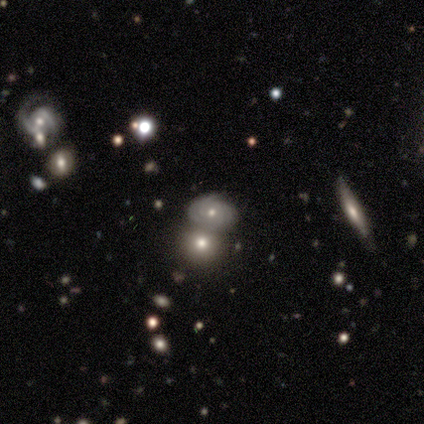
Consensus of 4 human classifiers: Smooth or featured? 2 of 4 (50%, tied with featured or disk) said smooth. How rounded? 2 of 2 (100%) said round. Merging? 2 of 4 (50%) said merger.